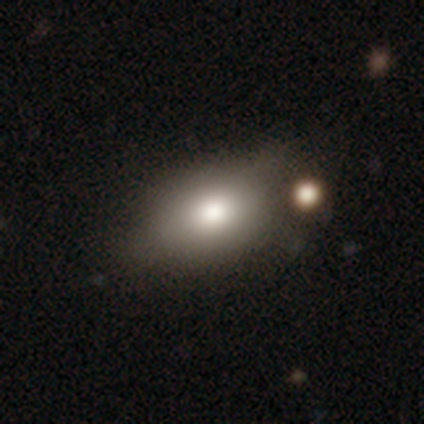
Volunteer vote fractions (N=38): Q: Smooth or featured?
A: smooth (82%); runner-up: featured or disk (13%)
Q: How rounded?
A: in between (87%); runner-up: round (13%)
Q: Merging?
A: none (56%); runner-up: minor disturbance (14%)